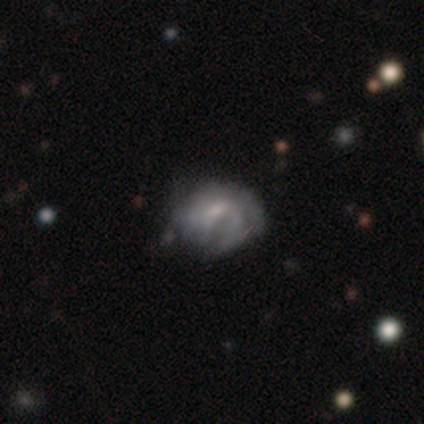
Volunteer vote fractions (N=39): smooth-or-featured: featured or disk: 51% | smooth: 46% | star or artifact: 3%
  disk-edge-on: no: 100% | yes: 0%
    bar: weak: 55% | no: 40% | strong: 5%
    has-spiral-arms: yes: 60% | no: 40%
      spiral-winding: tight: 42% (tied) | medium: 42% (tied) | loose: 17%
      spiral-arm-count: can't tell: 50% | 1: 25% | 2: 8% | 4: 8% | more than 4: 8% | 3: 0%
    bulge-size: small: 50% | moderate: 25% | none: 20% | dominant: 5% | large: 0%
  merging: none: 42% | minor disturbance: 37% | major disturbance: 16% | merger: 5%